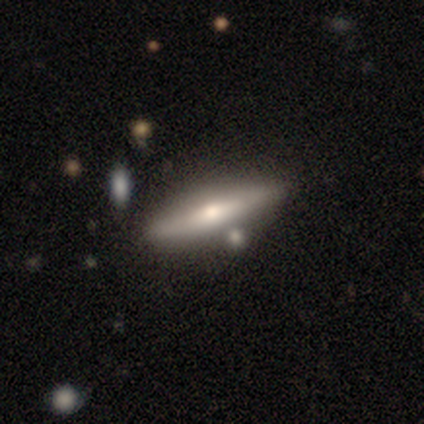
Smooth or featured?
  - featured or disk: 72% *
  - smooth: 28%
  - star or artifact: 0%
Edge-on disk?
  - yes: 86% *
  - no: 14%
Edge-on bulge?
  - rounded: 96% *
  - boxy: 4%
  - none: 0%
Merging?
  - none: 72% *
  - minor disturbance: 10%
  - merger: 10%
  - major disturbance: 0%